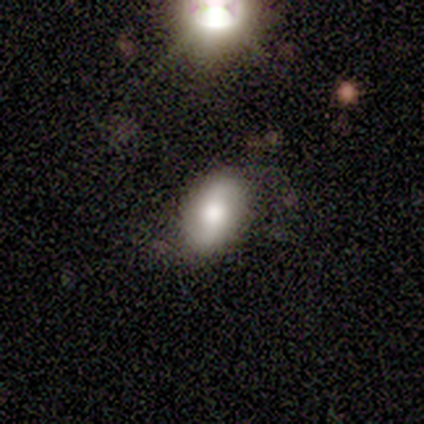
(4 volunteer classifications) Q: Smooth or featured?
A: smooth (50%); tied with: featured or disk (50%)
Q: How rounded?
A: round (50%); tied with: in between (50%)
Q: Merging?
A: none (75%); runner-up: minor disturbance (25%)